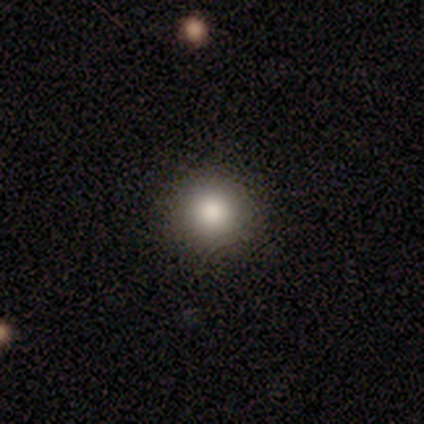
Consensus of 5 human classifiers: smooth 40% (tied), star or artifact 40% (tied), featured or disk 20%. Down the decision tree: how rounded — round (100%); merging — none (100%).